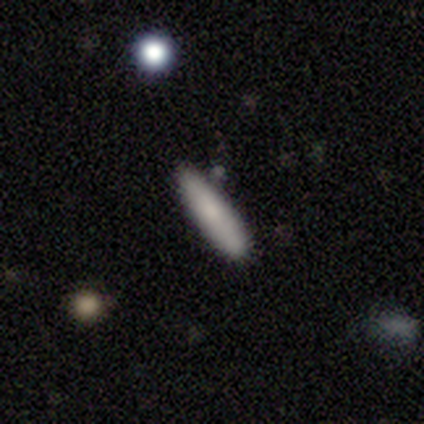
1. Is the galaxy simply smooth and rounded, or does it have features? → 60% smooth, 40% featured or disk, 0% star or artifact.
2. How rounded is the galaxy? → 67% cigar-shaped, 33% in between, 0% round.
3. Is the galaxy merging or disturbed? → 80% none, 20% minor disturbance, 0% major disturbance, 0% merger.